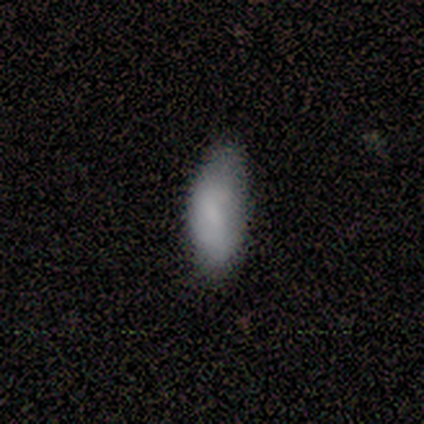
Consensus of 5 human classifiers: Smooth or featured? smooth (100%)
How rounded? in between (60%)
Merging? none (80%)